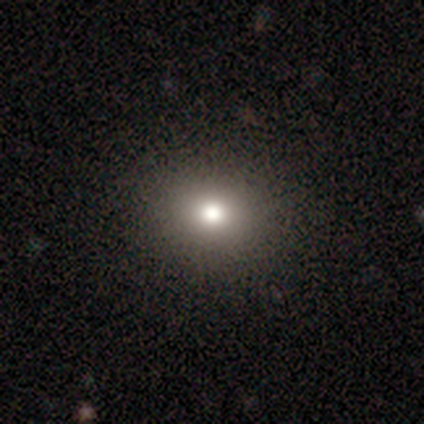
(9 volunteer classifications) smooth 78%, featured or disk 22%, star or artifact 0%. Down the decision tree: how rounded — round (71%); merging — none (89%).